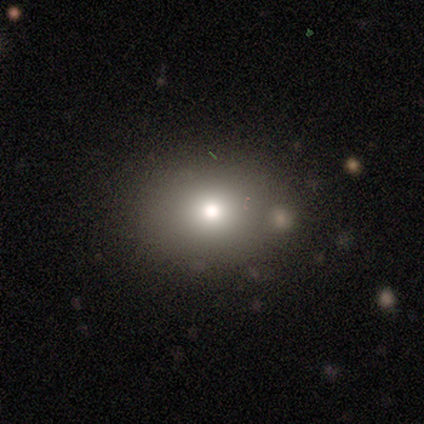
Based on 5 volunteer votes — Overall: smooth (100%). How rounded: in between (80%). Merging: none (60%; minor disturbance 20%).